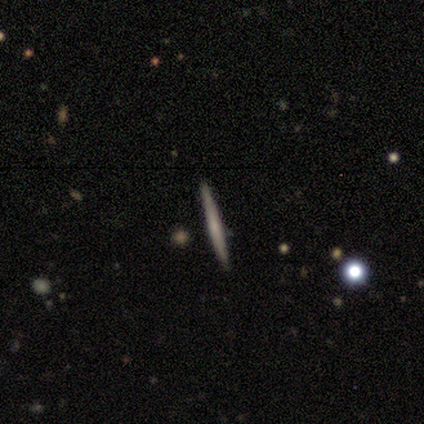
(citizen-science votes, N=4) A smooth galaxy with no disk features (50%, tied with featured or disk) that is cigar-shaped (100%).

Vote fractions:
- Smooth or featured? smooth: 50% (tied) / featured or disk: 50% (tied) / star or artifact: 0%
- How rounded? cigar-shaped: 100% / round: 0% / in between: 0%
- Merging? none: 100% / minor disturbance: 0% / major disturbance: 0% / merger: 0%